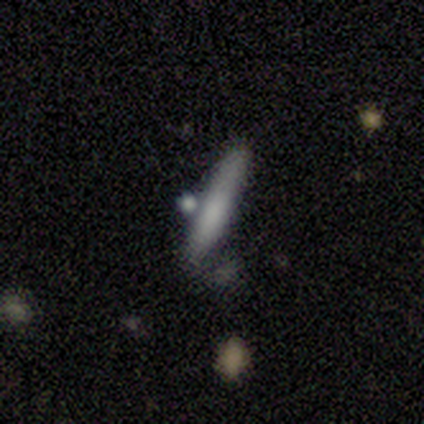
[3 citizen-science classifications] This appears to be a smooth galaxy with no disk features (67%) that is cigar-shaped (100%). Merging: none (33%, tied with minor disturbance and merger).